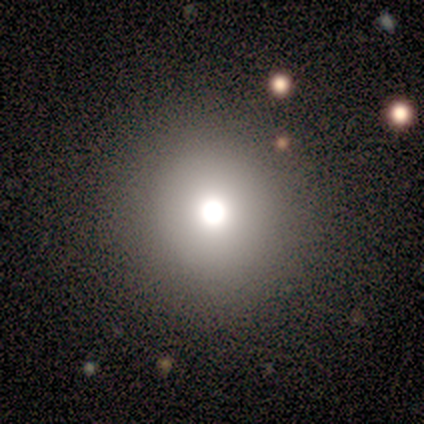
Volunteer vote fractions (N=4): Overall: star or artifact (75%).